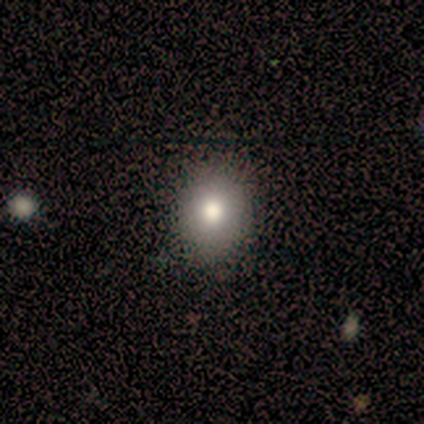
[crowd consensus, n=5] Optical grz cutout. It shows a smooth galaxy with no disk features (80%) that is round (75%). Merging: none (50%).